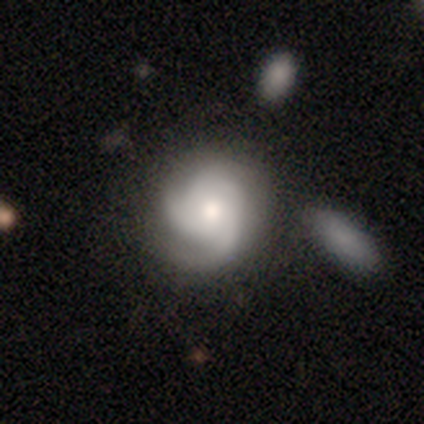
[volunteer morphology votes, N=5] A featured or disk galaxy (100%) with no bar (100%), 3 (100%) tight (80%) spiral arms (100%) and a moderate central bulge (80%).

Vote fractions:
- Smooth or featured? featured or disk: 100% / smooth: 0% / star or artifact: 0%
- Edge-on disk? no: 100% / yes: 0%
- Bar? no: 100% / strong: 0% / weak: 0%
- Spiral arms? yes: 100% / no: 0%
- Spiral winding? tight: 80% / medium: 20% / loose: 0%
- Spiral arm count? 3: 100% / 1: 0% / 2: 0% / 4: 0% / more than 4: 0% / can't tell: 0%
- Bulge size? moderate: 80% / small: 20% / dominant: 0% / large: 0% / none: 0%
- Merging? none: 60% / minor disturbance: 40% / major disturbance: 0% / merger: 0%